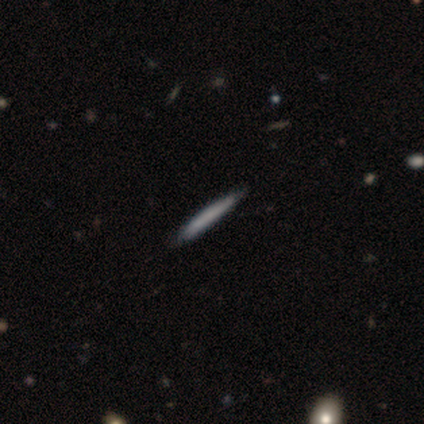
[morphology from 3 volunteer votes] This is clearly a smooth galaxy (100%). How rounded: clearly cigar-shaped (100%). Merging: clearly none (100%).